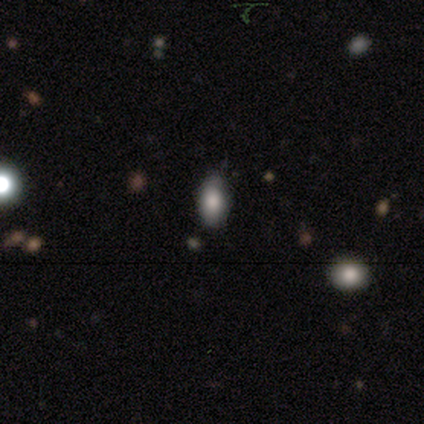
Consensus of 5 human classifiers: smooth_or_featured: star or artifact (p=0.60) [alt: smooth p=0.40]